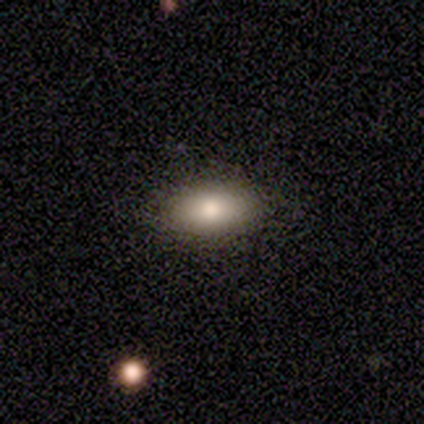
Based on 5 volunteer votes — Overall: smooth (100%). How rounded: in between (60%; cigar-shaped 40%). Merging: none (100%).